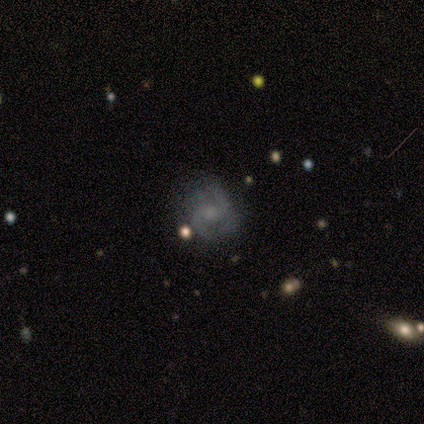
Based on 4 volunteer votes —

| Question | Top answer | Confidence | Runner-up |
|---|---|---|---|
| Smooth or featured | featured or disk | 75% | star or artifact (25%) |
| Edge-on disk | no | 100% | — |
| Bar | no | 67% | weak (33%) |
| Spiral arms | yes | 100% | — |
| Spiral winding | loose | 67% | tight (33%) |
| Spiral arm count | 2 | 100% | — |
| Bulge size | large | 33% | tied: small (33%), none (33%) |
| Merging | none | 67% | major disturbance (33%) |